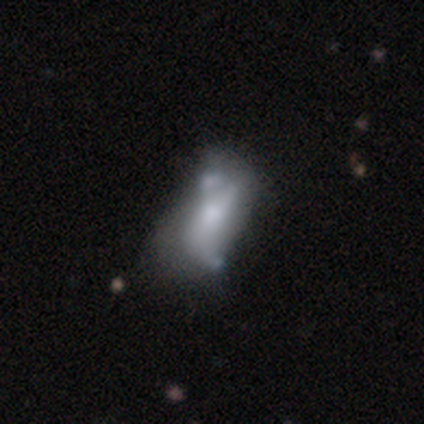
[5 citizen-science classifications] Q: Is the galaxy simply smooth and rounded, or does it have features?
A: featured or disk — 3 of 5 (60%).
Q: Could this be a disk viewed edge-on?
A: no — 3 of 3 (100%).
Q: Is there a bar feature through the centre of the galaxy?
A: no — 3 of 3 (100%).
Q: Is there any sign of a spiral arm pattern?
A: no — 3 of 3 (100%).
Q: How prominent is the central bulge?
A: moderate — 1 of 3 (33%, tied with small and none).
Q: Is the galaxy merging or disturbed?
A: major disturbance — 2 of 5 (40%, tied with merger).